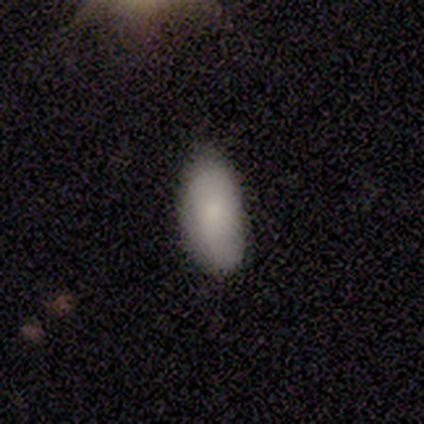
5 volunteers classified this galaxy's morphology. Smooth or featured? 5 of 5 (100%) said smooth. How rounded? 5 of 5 (100%) said in between. Merging? 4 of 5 (80%) said none.